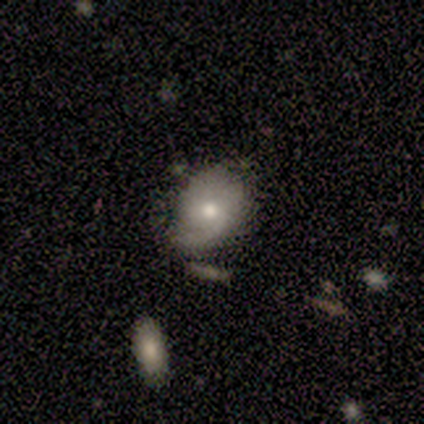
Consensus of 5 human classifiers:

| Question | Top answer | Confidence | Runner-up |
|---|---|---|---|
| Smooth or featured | featured or disk | 60% | smooth (40%) |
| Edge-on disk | no | 100% | — |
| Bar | no | 67% | weak (33%) |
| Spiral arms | yes | 100% | — |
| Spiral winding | loose | 67% | tight (33%) |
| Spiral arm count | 1 | 67% | 2 (33%) |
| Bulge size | moderate | 67% | small (33%) |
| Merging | none | 60% | minor disturbance (40%) |